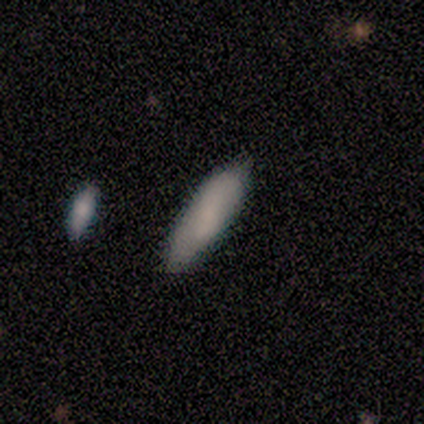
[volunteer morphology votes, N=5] smooth 80%, star or artifact 20%, featured or disk 0%. Down the decision tree: how rounded — cigar-shaped (75%); merging — none (75%).